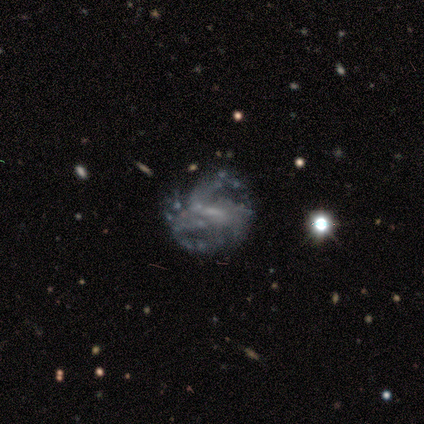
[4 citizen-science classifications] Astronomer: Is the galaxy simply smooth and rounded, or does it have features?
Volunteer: featured or disk — 75%.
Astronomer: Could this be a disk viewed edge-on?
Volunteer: no — 100%.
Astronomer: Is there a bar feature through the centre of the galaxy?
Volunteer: weak — 100%.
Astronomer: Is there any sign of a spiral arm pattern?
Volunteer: yes — 100%.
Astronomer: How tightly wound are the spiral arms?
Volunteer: tight — 67%.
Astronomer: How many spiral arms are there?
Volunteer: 3 — 33%, tied with 4 and can't tell at 33%.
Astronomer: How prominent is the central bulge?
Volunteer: moderate — 33%, tied with small and none at 33%.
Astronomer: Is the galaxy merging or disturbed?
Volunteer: none — 50%.